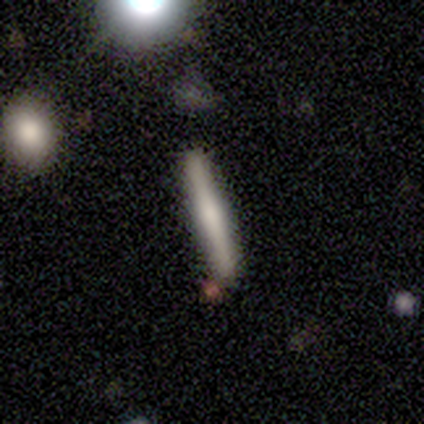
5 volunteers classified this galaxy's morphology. Smooth or featured? 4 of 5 (80%) said smooth. How rounded? 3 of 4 (75%) said cigar-shaped. Merging? 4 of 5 (80%) said none.